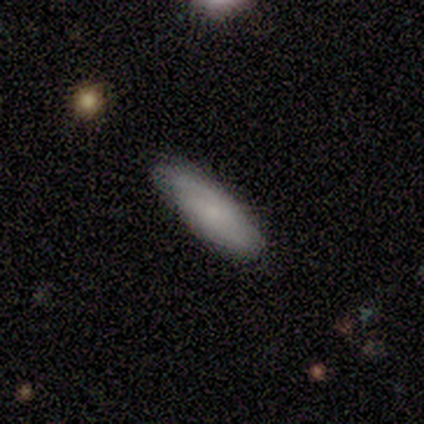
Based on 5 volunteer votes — A featured or disk galaxy (80%) with no bar (75%), tight (100%) spiral arms (100%) and a small central bulge (50%). Merging: none (100%).